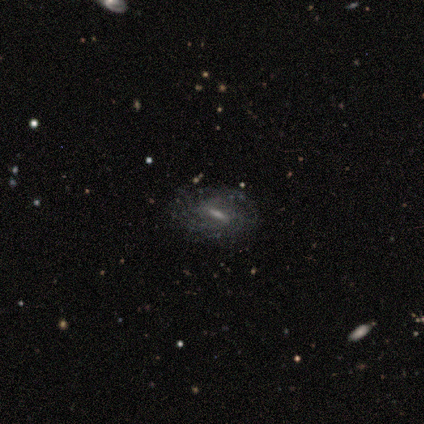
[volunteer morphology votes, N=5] Smooth or featured: featured or disk — 80% (smooth — 20%)
Edge-on disk: no — 75% (yes — 25%)
Bar: weak — 67% (strong — 33%)
Spiral arms: yes — 100%
Spiral winding: tight — 67% (medium — 33%)
Spiral arm count: can't tell — 100%
Bulge size: moderate — 67% (none — 33%)
Merging: none — 40% (minor disturbance — 20%)